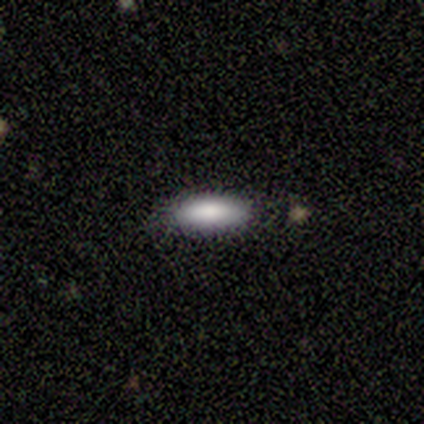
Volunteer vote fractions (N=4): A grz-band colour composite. It shows a smooth galaxy with no disk features (100%) that is in between round and cigar-shaped (75%). Merging: none (75%).